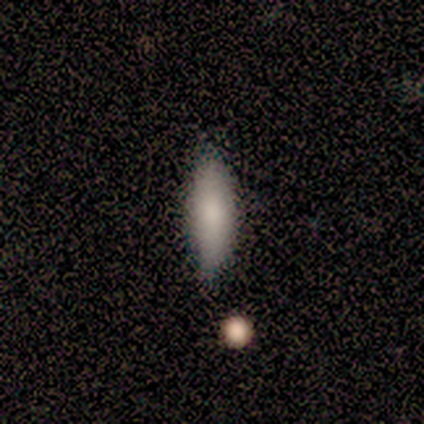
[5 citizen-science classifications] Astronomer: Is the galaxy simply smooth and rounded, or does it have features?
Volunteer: smooth — 60%.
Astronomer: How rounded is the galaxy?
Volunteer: cigar-shaped — 67%.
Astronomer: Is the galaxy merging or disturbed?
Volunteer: none — 50%.